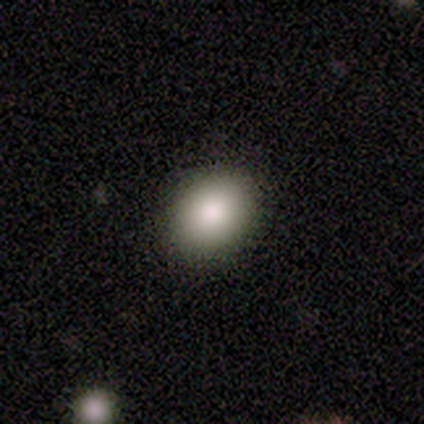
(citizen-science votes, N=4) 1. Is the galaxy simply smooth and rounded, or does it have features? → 100% smooth, 0% featured or disk, 0% star or artifact.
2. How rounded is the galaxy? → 75% round, 25% in between, 0% cigar-shaped.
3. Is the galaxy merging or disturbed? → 100% none, 0% minor disturbance, 0% major disturbance, 0% merger.